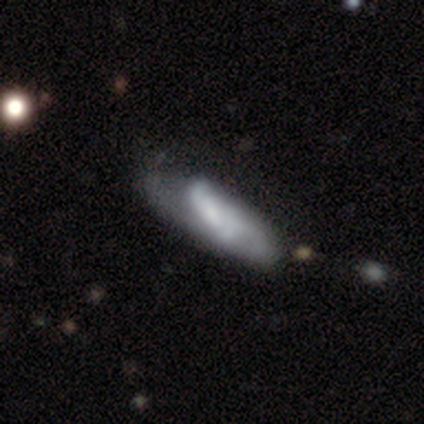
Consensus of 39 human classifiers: smooth-or-featured: featured or disk: 67% | smooth: 31% | star or artifact: 3%
  disk-edge-on: no: 88% | yes: 12%
    bar: no: 48% | weak: 43% | strong: 9%
    has-spiral-arms: yes: 70% | no: 30%
      spiral-winding: medium: 44% | loose: 38% | tight: 19%
      spiral-arm-count: 2: 50% | can't tell: 38% | 3: 6% | 4: 6% | 1: 0% | more than 4: 0%
    bulge-size: none: 61% | small: 26% | moderate: 9% | large: 4% | dominant: 0%
  merging: none: 24% (tied) | major disturbance: 24% (tied) | minor disturbance: 18% | merger: 5%